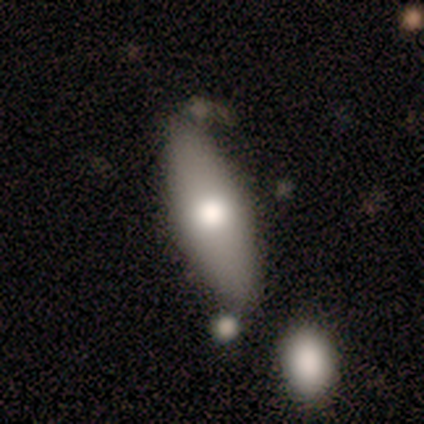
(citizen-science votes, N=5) Smooth or featured?
  - smooth: 60% *
  - featured or disk: 40%
  - star or artifact: 0%
How rounded?
  - in between: 67% *
  - cigar-shaped: 33%
  - round: 0%
Merging?
  - none: 80% *
  - major disturbance: 20%
  - minor disturbance: 0%
  - merger: 0%